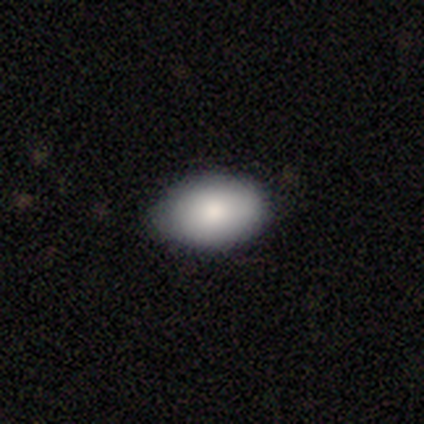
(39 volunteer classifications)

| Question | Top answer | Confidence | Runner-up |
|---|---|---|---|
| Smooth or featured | smooth | 90% | star or artifact (8%) |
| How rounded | in between | 80% | round (20%) |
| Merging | none | 86% | minor disturbance (11%) |